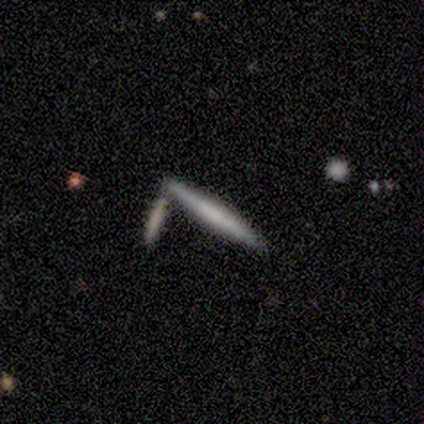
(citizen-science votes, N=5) Morphology: type=featured or disk (100%); edge-on=yes (100%); edge-on bulge=none (80%); merging=none (40%).